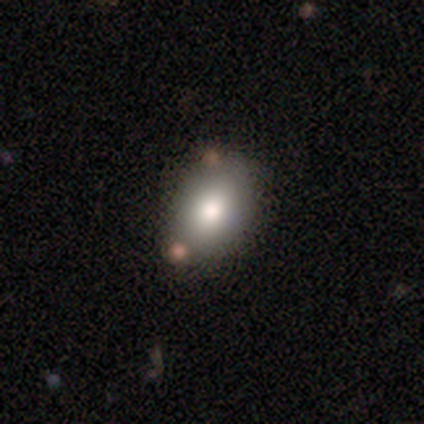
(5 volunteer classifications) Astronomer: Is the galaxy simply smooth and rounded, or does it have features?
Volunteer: smooth — 80%.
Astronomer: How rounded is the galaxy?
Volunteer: in between — 75%.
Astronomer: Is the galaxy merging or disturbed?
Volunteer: none — 75%.